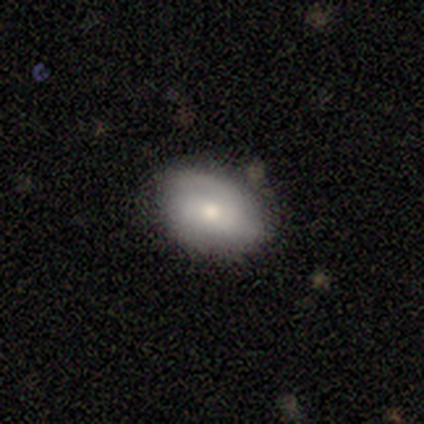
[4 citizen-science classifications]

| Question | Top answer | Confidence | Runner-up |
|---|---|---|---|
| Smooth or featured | smooth | 75% | featured or disk (25%) |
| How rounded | round | 67% | in between (33%) |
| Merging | none | 50% | tied: minor disturbance (50%) |